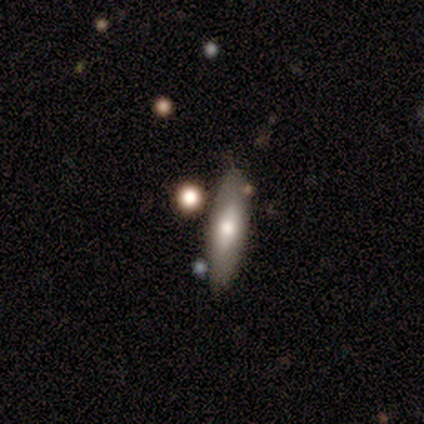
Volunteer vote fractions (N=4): This appears to be a smooth galaxy with no disk features (75%) that is cigar-shaped (67%). Merging: none (50%).